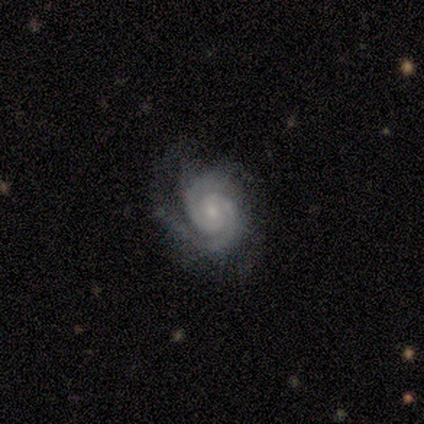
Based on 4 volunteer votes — smooth_or_featured: featured or disk (p=1.00)
disk_edge_on: no (p=1.00)
bar: weak (p=0.50) [tied with: no p=0.50]
has_spiral_arms: yes (p=1.00)
spiral_winding: tight (p=0.50) [tied with: medium p=0.50]
spiral_arm_count: 2 (p=0.75) [alt: can't tell p=0.25]
bulge_size: small (p=0.75) [alt: moderate p=0.25]
merging: none (p=0.50) [alt: minor disturbance p=0.25]